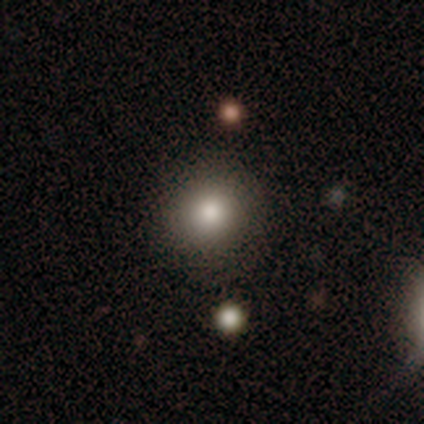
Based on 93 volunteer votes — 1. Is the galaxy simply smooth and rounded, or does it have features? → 77% smooth, 17% star or artifact, 5% featured or disk.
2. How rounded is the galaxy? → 89% round, 11% in between, 0% cigar-shaped.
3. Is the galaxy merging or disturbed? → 91% none, 8% minor disturbance, 1% major disturbance, 0% merger.